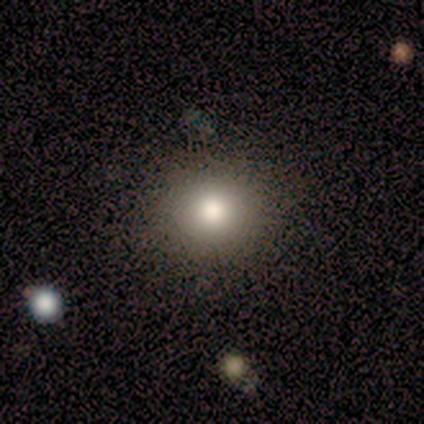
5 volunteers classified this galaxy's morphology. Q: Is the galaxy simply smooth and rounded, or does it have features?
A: smooth — 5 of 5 (100%).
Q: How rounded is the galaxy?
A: round — 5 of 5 (100%).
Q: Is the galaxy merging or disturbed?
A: none — 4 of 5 (80%).